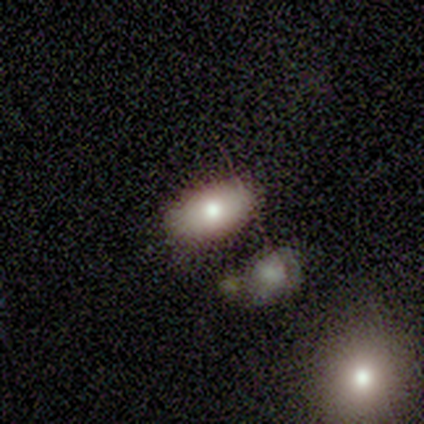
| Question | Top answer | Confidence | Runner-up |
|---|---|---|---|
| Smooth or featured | smooth | 100% | — |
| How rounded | in between | 100% | — |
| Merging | none | 100% | — |